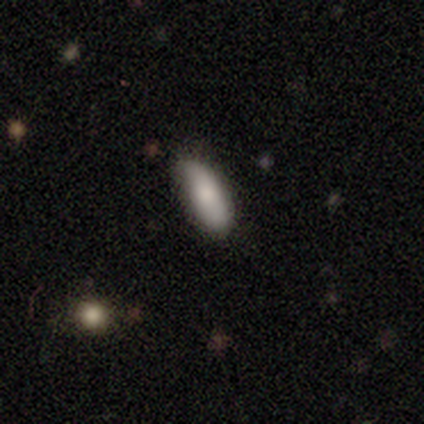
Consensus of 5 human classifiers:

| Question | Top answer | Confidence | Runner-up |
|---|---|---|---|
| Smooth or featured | smooth | 80% | star or artifact (20%) |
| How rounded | in between | 50% | tied: cigar-shaped (50%) |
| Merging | none | 50% | tied: minor disturbance (50%) |